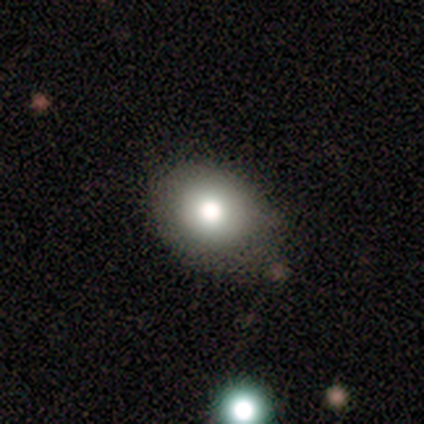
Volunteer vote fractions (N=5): Volunteers were most divided on "how rounded" (2-way tie): round: 50%, in between: 50%, cigar-shaped: 0%. More confident: smooth or featured — smooth (80%); merging — none (75%).